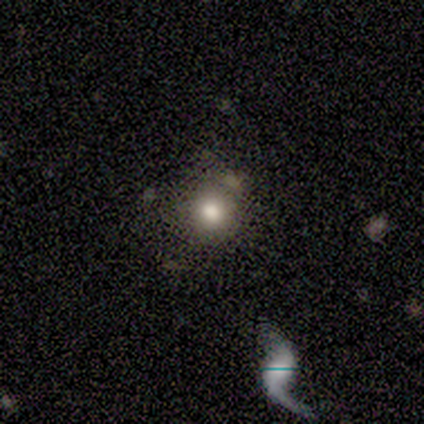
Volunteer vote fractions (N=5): Smooth or featured? 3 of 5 (60%) said smooth. How rounded? 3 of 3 (100%) said round. Merging? 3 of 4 (75%) said none.